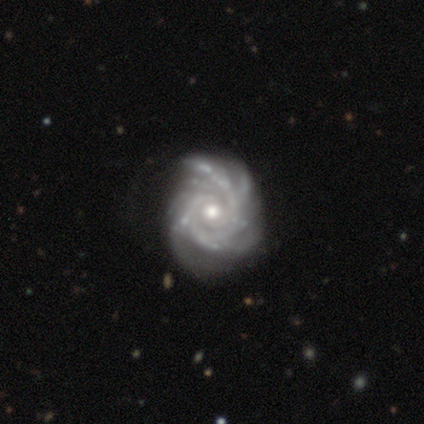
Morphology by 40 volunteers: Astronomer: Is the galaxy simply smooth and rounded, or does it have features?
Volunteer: featured or disk — 100%.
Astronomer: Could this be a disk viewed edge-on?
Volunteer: no — 100%.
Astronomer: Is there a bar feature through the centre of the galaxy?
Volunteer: no — 70%.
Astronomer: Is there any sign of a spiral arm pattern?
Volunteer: yes — 100%.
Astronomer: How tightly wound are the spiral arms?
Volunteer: tight — 70%.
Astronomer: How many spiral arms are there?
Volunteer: more than 4 — 32% (runner-up: 4, 22%).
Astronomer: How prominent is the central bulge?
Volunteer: moderate — 68%.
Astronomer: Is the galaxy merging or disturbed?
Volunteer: none — 60%.